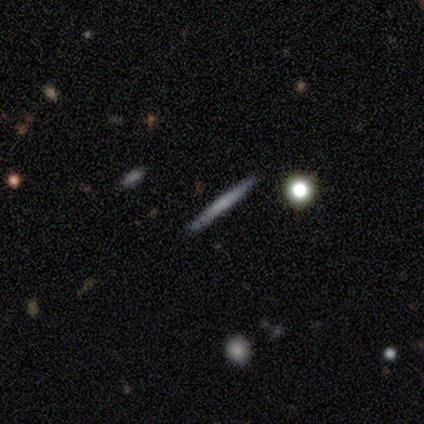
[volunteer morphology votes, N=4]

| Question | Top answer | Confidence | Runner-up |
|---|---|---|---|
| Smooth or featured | smooth | 50% | featured or disk (25%) |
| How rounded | cigar-shaped | 100% | — |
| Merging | none | 100% | — |